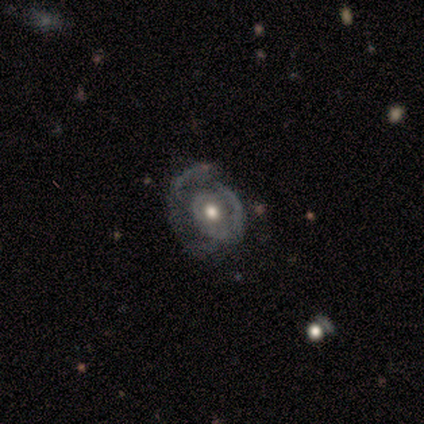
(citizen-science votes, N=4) Smooth or featured? featured or disk (75%)
Edge-on disk? no (100%)
Bar? no (67%)
Spiral arms? yes (100%)
Spiral winding? medium (67%)
Spiral arm count? 1 (67%)
Bulge size? moderate (67%)
Merging? minor disturbance (50%)